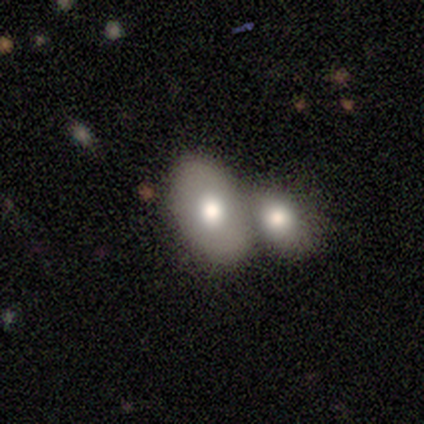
Smooth or featured? 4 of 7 (57%) said featured or disk. Edge-on disk? 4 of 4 (100%) said no. Bar? 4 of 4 (100%) said no. Spiral arms? 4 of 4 (100%) said no. Bulge size? 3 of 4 (75%) said moderate. Merging? 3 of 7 (43%) said merger.